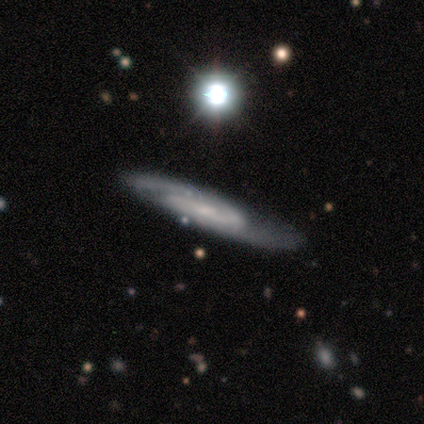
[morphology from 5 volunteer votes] Volunteers were most divided on "bar" (3-way tie): strong: 33%, weak: 33%, no: 33%. More confident: spiral arms — yes (100%); spiral arm count — 2 (100%); smooth or featured — featured or disk (80%); merging — none (80%); edge-on disk — no (75%); spiral winding — medium (67%); bulge size — moderate (67%).